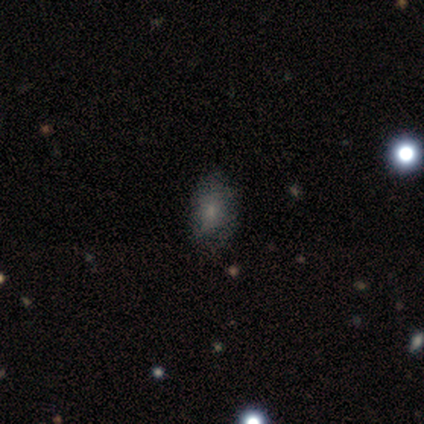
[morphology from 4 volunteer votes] Smooth or featured?
  - smooth: 75% *
  - featured or disk: 25%
  - star or artifact: 0%
How rounded?
  - in between: 100% *
  - round: 0%
  - cigar-shaped: 0%
Merging?
  - none: 100% *
  - minor disturbance: 0%
  - major disturbance: 0%
  - merger: 0%